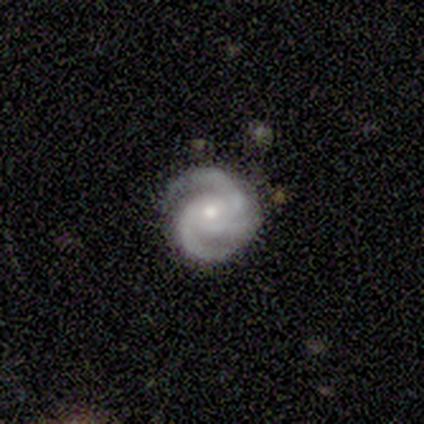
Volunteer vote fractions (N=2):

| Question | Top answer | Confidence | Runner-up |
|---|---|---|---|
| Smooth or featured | featured or disk | 100% | — |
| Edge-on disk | no | 100% | — |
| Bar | no | 100% | — |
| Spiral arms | yes | 100% | — |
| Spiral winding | tight | 50% | tied: medium (50%) |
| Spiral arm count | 2 | 50% | tied: 3 (50%) |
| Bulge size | small | 100% | — |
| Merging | none | 100% | — |